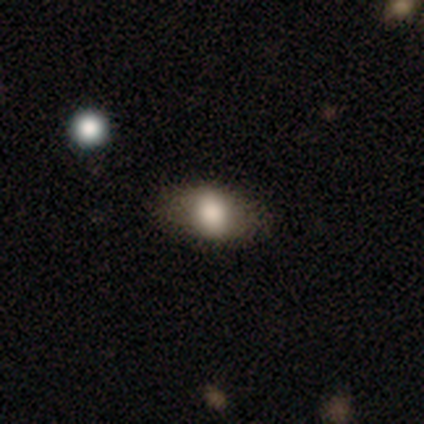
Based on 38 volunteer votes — This is clearly a smooth galaxy (87%). How rounded: clearly in between (100%). Merging: clearly none (81%).